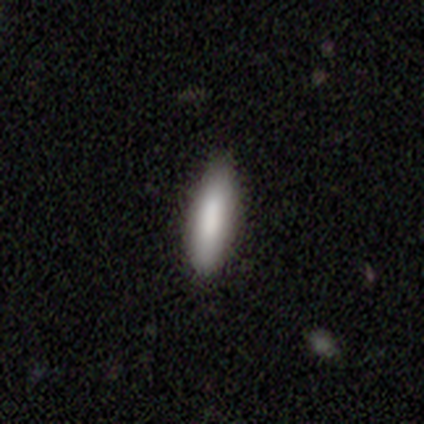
Morphology: type=smooth (100%); roundness=cigar-shaped (80%); merging=none (100%).